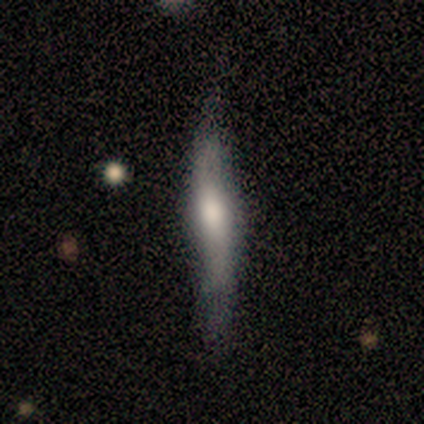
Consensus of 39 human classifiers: smooth_or_featured: featured or disk (p=0.69) [alt: smooth p=0.26]
disk_edge_on: yes (p=0.74) [alt: no p=0.26]
edge_on_bulge: rounded (p=0.75) [alt: none p=0.20]
merging: none (p=0.76) [alt: minor disturbance p=0.11]